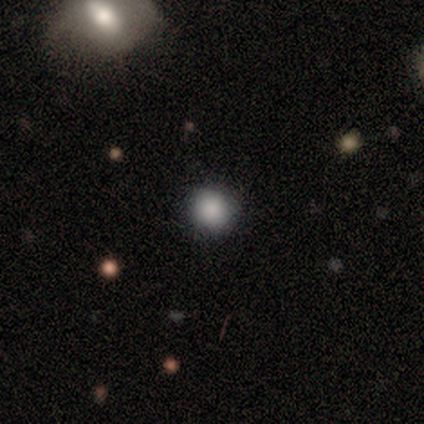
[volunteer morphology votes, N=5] This appears to be a smooth galaxy with no disk features (80%) that is round (100%). Merging: none (75%).